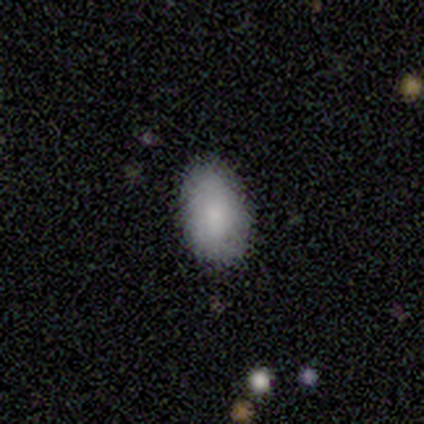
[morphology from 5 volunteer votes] Overall: smooth (100%). How rounded: in between (100%). Merging: none (100%).